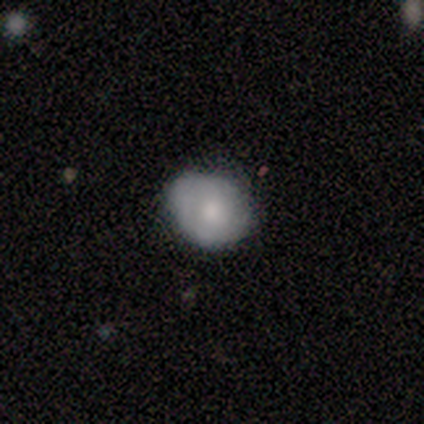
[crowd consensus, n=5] featured or disk 60%, smooth 40%, star or artifact 0%. Down the decision tree: edge-on disk — no (100%); bar — no (100%); spiral arms — no (100%); bulge size — moderate (67%); merging — minor disturbance (60%).